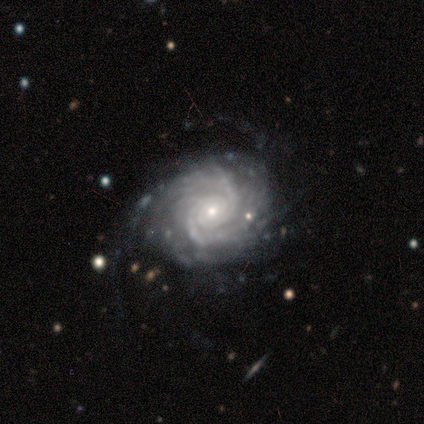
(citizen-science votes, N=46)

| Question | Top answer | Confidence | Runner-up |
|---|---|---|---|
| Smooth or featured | featured or disk | 96% | star or artifact (4%) |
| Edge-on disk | no | 100% | — |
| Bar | no | 75% | weak (14%) |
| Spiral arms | yes | 100% | — |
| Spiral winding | tight | 75% | medium (23%) |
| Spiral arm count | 2 | 32% | can't tell (30%) |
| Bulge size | small | 59% | moderate (32%) |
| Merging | none | 64% | minor disturbance (30%) |